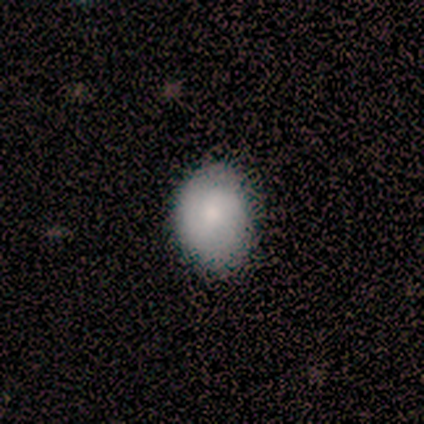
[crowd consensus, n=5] Smooth or featured: smooth — 100%
How rounded: in between — 60% (round — 40%)
Merging: none — 100%